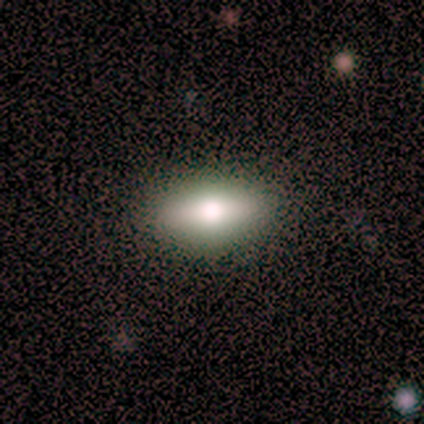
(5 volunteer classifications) smooth-or-featured: smooth: 100% | featured or disk: 0% | star or artifact: 0%
  how-rounded: in between: 80% | cigar-shaped: 20% | round: 0%
  merging: none: 100% | minor disturbance: 0% | major disturbance: 0% | merger: 0%